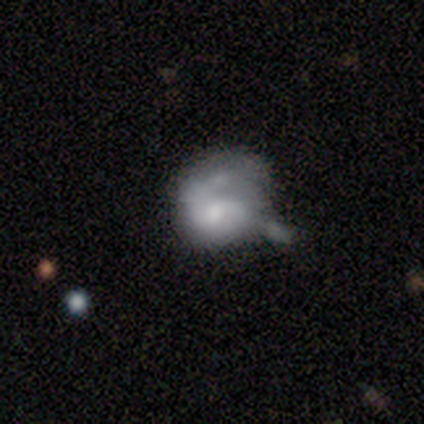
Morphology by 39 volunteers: Smooth or featured? featured or disk (67%)
Edge-on disk? no (100%)
Bar? no (77%)
Spiral arms? yes (50%, tied with no)
Spiral winding? medium (46%)
Spiral arm count? 1 (46%)
Bulge size? moderate (31%, tied with small)
Merging? minor disturbance (35%)